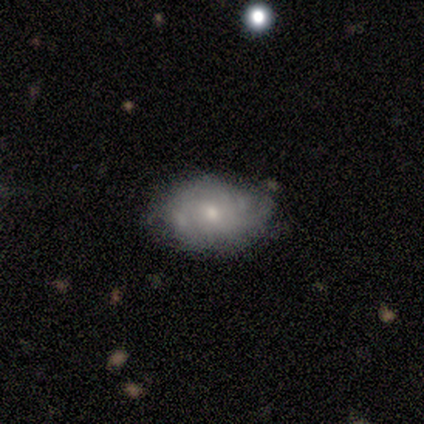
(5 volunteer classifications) Morphology: type=featured or disk (80%); edge-on=no (100%); bar=weak (50%, tied with no); spiral arms=yes (75%); winding=tight (100%); arm count=can't tell (100%); bulge=small (75%); merging=minor disturbance (60%).